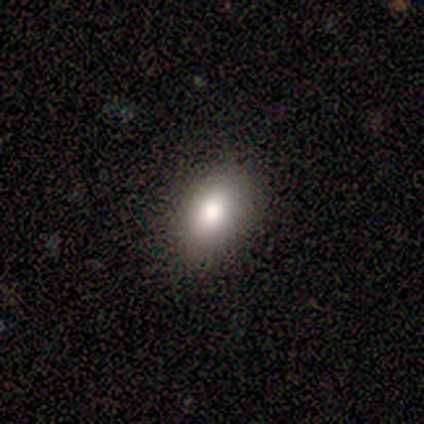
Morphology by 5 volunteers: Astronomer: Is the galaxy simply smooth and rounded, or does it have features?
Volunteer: smooth — 100%.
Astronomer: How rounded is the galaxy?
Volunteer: in between — 100%.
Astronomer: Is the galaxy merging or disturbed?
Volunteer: none — 100%.